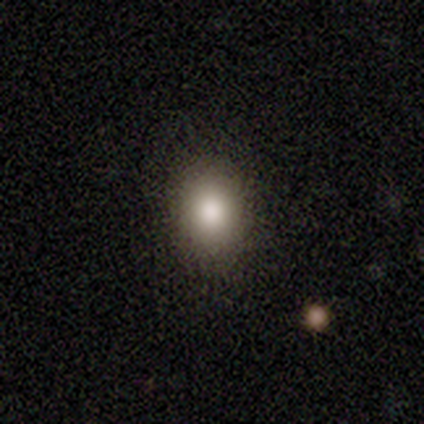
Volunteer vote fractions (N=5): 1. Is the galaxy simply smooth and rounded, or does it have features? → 100% smooth, 0% featured or disk, 0% star or artifact.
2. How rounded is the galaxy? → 80% in between, 20% round, 0% cigar-shaped.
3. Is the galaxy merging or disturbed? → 100% none, 0% minor disturbance, 0% major disturbance, 0% merger.